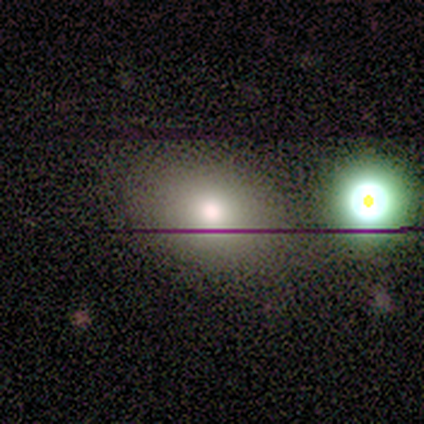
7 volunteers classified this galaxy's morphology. smooth-or-featured: smooth: 71% | star or artifact: 29% | featured or disk: 0%
  how-rounded: round: 60% | in between: 40% | cigar-shaped: 0%
  merging: none: 60% | merger: 40% | minor disturbance: 0% | major disturbance: 0%